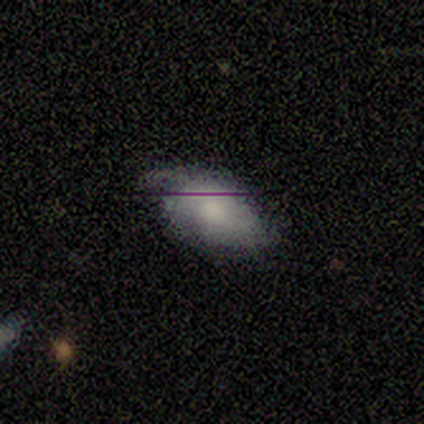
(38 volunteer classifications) This is likely a smooth galaxy (76%). How rounded: clearly in between (100%). Merging: marginally none (44%, tied with minor disturbance).